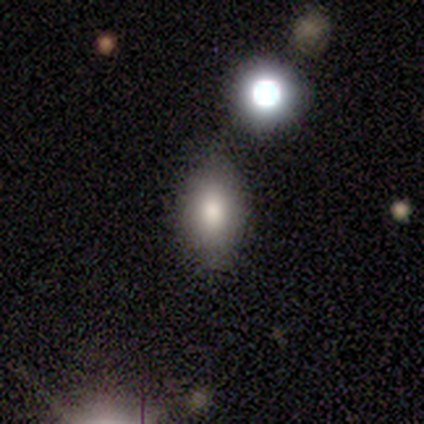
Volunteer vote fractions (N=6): Q: Smooth or featured?
A: smooth (67%); runner-up: featured or disk (17%)
Q: How rounded?
A: in between (100%)
Q: Merging?
A: none (80%); runner-up: minor disturbance (20%)